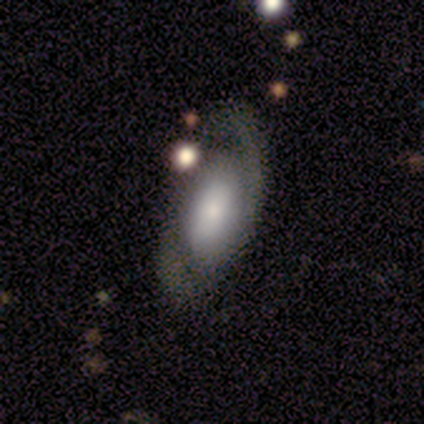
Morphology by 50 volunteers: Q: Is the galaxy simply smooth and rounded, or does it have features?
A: featured or disk — 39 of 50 (78%).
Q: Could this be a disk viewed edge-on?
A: no — 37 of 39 (95%).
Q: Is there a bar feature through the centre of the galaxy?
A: no — 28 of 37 (76%).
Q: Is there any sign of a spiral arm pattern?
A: yes — 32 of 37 (86%).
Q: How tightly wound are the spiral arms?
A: tight — 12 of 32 (38%).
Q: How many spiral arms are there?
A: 2 — 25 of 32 (78%).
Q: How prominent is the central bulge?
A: small — 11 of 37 (30%).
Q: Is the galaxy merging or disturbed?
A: none — 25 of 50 (50%).